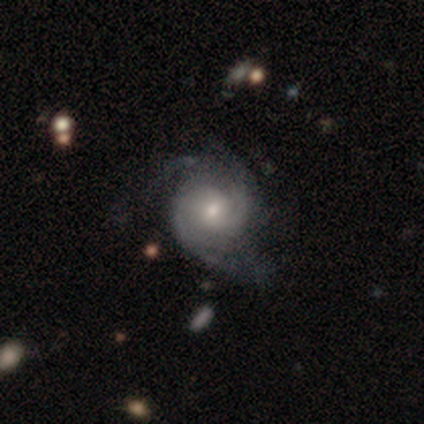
Overall: featured or disk (92%). Edge-on disk: no (99%). Bar: no (72%). Spiral arms: yes (99%). Spiral arm count: 2 (42%; 3 27%). Spiral winding: tight (47%; medium 43%). Bulge size: moderate (51%; small 42%). Merging: none (65%).